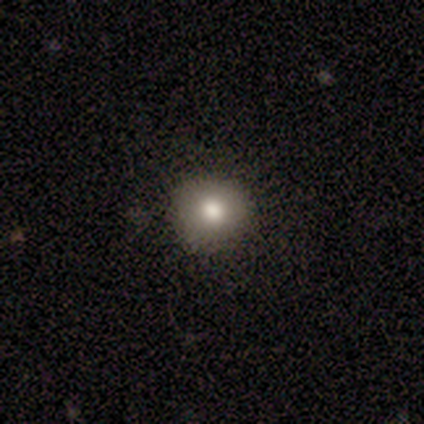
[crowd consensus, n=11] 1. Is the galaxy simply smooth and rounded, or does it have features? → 73% smooth, 18% featured or disk, 9% star or artifact.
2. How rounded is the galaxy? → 88% round, 12% in between, 0% cigar-shaped.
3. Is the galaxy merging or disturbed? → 90% none, 10% minor disturbance, 0% major disturbance, 0% merger.